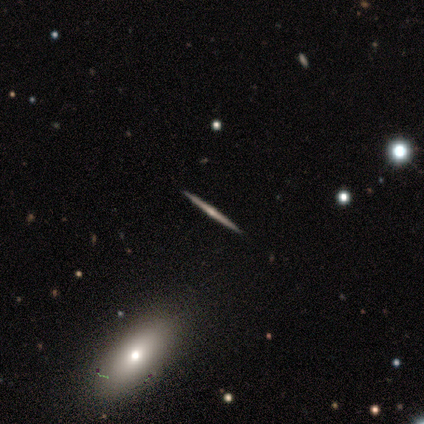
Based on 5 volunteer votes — This is clearly a featured or disk galaxy (80%). It is clearly viewed edge-on (100%). Edge-on bulge: possibly none (50%, tied with rounded). Merging: possibly none (50%, tied with minor disturbance).